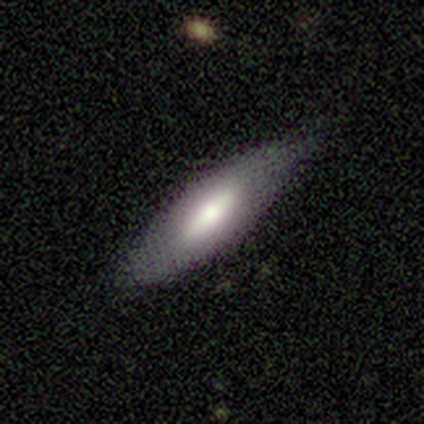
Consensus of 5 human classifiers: Smooth or featured?
  - featured or disk: 60% *
  - smooth: 40%
  - star or artifact: 0%
Edge-on disk?
  - yes: 67% *
  - no: 33%
Edge-on bulge?
  - boxy: 50% * (tied)
  - rounded: 50% * (tied)
  - none: 0%
Merging?
  - none: 60% *
  - minor disturbance: 40%
  - major disturbance: 0%
  - merger: 0%